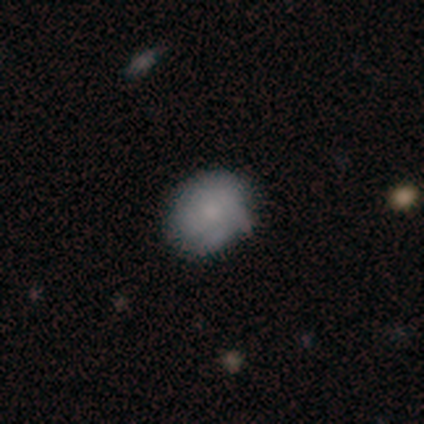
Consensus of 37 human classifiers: A smooth galaxy with no disk features (54%) that is round (60%).

Vote fractions:
- Smooth or featured? smooth: 54% / featured or disk: 38% / star or artifact: 8%
- How rounded? round: 60% / in between: 40% / cigar-shaped: 0%
- Merging? none: 82% / minor disturbance: 15% / major disturbance: 3% / merger: 0%